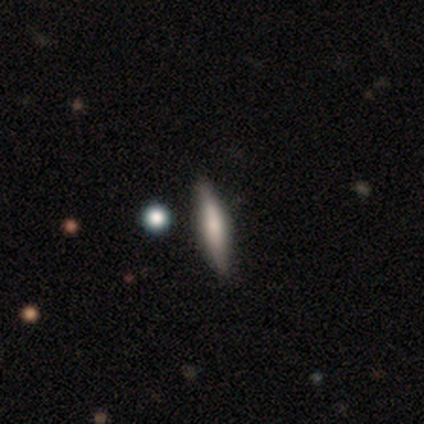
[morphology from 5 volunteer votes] smooth 40% (tied), featured or disk 40% (tied), star or artifact 20%. Down the decision tree: how rounded — cigar-shaped (100%); merging — none (75%).